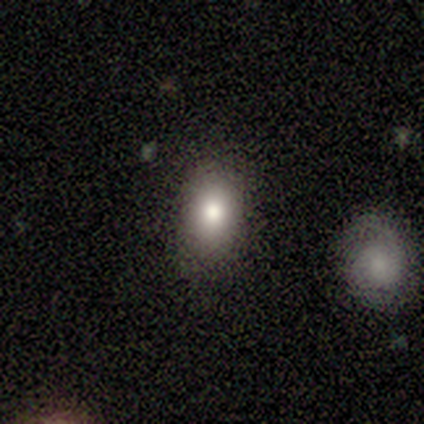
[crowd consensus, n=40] A smooth galaxy with no disk features (78%) that is in between round and cigar-shaped (65%). Merging: none (76%).